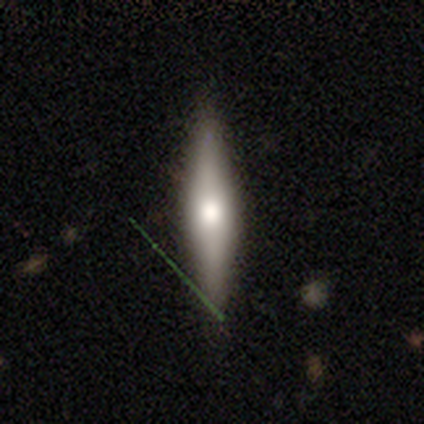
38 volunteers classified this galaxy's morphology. Volunteers were most divided on "smooth or featured": smooth: 53%, featured or disk: 39%, star or artifact: 8%. More confident: how rounded — cigar-shaped (95%); merging — none (91%).